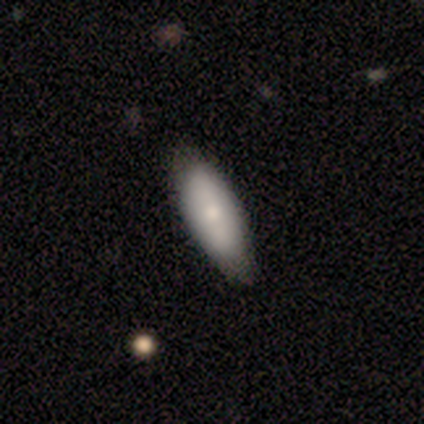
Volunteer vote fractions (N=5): Smooth or featured: smooth — 60% (featured or disk — 40%)
How rounded: in between — 100%
Merging: none — 60% (minor disturbance — 40%)